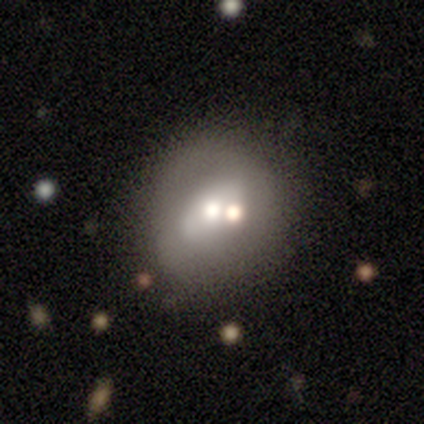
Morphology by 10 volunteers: This is clearly a featured or disk galaxy (90%). It is clearly not viewed edge-on (100%). Bar: clearly no (100%). Spiral arm pattern: clearly no (89%). Central bulge: likely moderate (67%). Merging: likely none (70%).